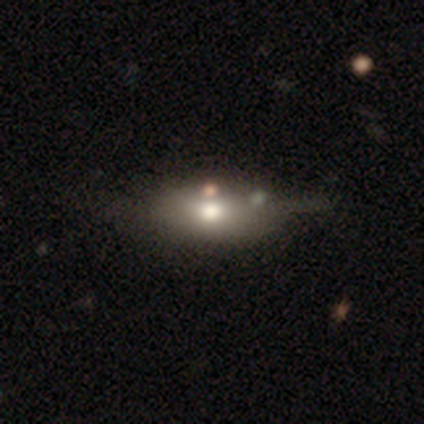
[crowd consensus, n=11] Volunteers were most divided on "merging": minor disturbance: 45%, none: 27%, merger: 27%, major disturbance: 0%. More confident: how rounded — in between (89%); smooth or featured — smooth (82%).